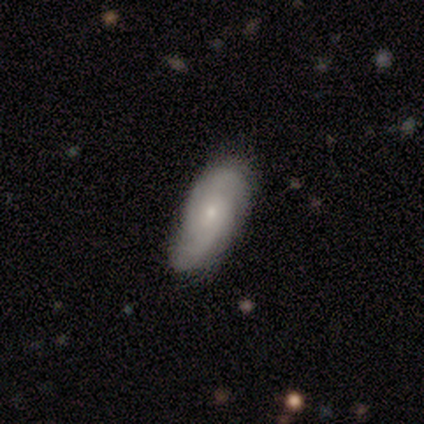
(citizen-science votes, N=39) Volunteers were most divided on "spiral winding": medium: 50%, tight: 38%, loose: 12%. More confident: spiral arms — yes (84%); bulge size — small (84%); bar — no (84%); edge-on disk — no (83%); merging — none (68%); smooth or featured — featured or disk (59%); spiral arm count — 2 (56%).